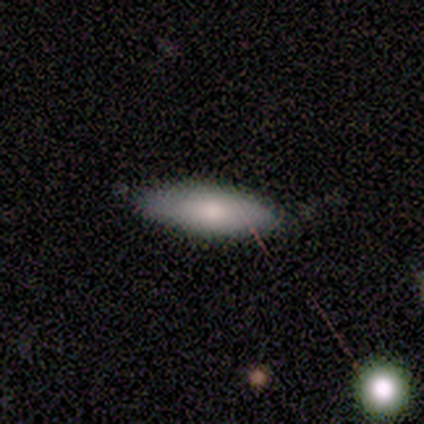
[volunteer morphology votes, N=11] A smooth galaxy with no disk features (64%) that is cigar-shaped (57%). Merging: none (70%).